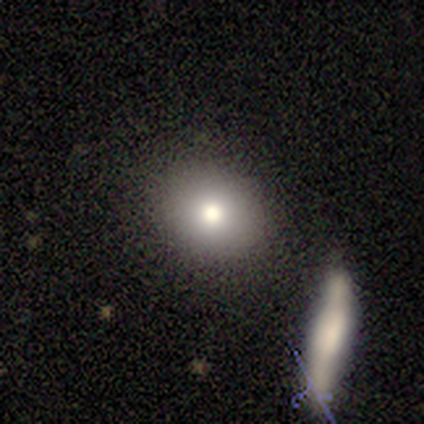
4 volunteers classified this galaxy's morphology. A smooth galaxy with no disk features (50%) that is in between round and cigar-shaped (50%, tied with cigar-shaped). Merging: none (67%).